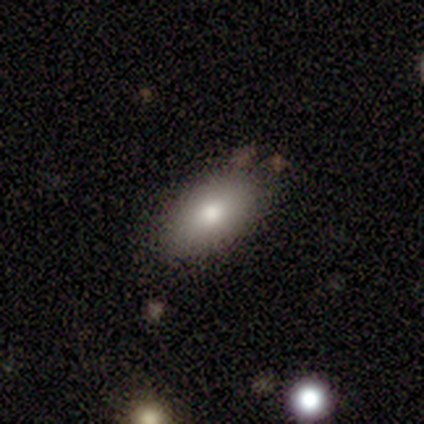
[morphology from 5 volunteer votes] A smooth galaxy with no disk features (80%) that is in between round and cigar-shaped (100%).

Vote fractions:
- Smooth or featured? smooth: 80% / featured or disk: 20% / star or artifact: 0%
- How rounded? in between: 100% / round: 0% / cigar-shaped: 0%
- Merging? none: 80% / minor disturbance: 20% / major disturbance: 0% / merger: 0%